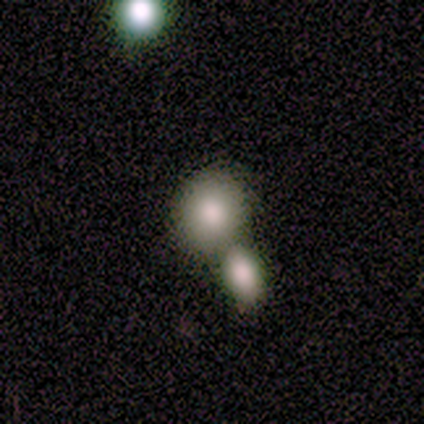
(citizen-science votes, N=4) This is possibly a star or artifact rather than a galaxy (50%).